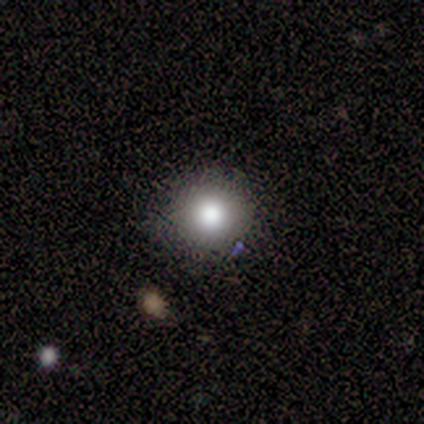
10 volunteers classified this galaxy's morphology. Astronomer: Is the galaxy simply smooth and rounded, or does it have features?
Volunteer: smooth — 70%.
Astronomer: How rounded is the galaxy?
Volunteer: round — 100%.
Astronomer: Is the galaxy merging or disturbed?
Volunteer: none — 100%.